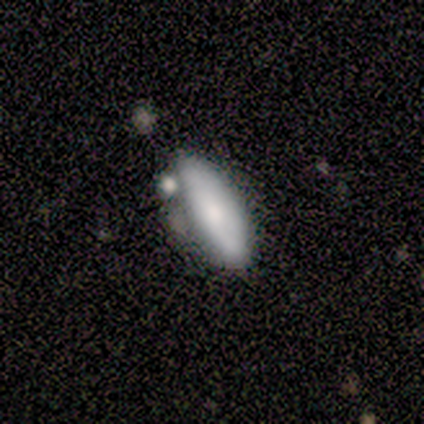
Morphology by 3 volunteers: smooth_or_featured: smooth (p=0.67) [alt: featured or disk p=0.33]
how_rounded: in between (p=0.50) [tied with: cigar-shaped p=0.50]
merging: none (p=0.67) [alt: minor disturbance p=0.33]